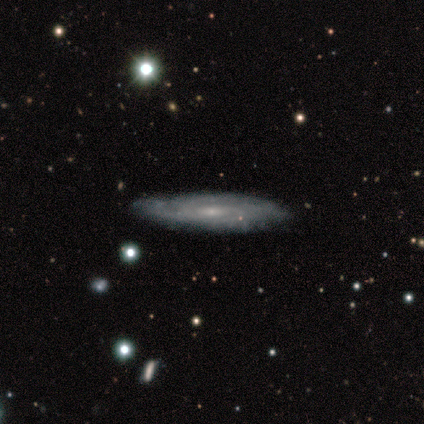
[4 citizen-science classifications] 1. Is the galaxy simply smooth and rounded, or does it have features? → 50% smooth, 25% featured or disk, 25% star or artifact.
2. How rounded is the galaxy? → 50% round (tied), 50% cigar-shaped (tied), 0% in between.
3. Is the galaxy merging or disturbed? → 67% none, 33% minor disturbance, 0% major disturbance, 0% merger.